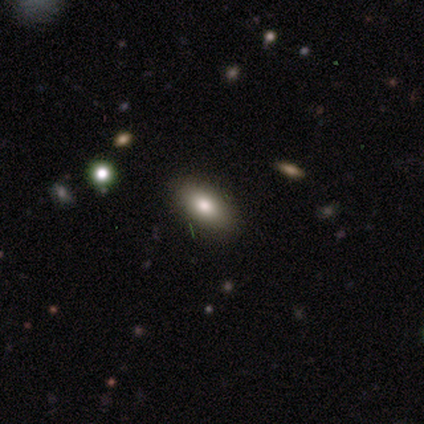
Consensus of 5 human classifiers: A smooth galaxy with no disk features (40%, tied with featured or disk) that is in between round and cigar-shaped (100%). Merging: none (75%).